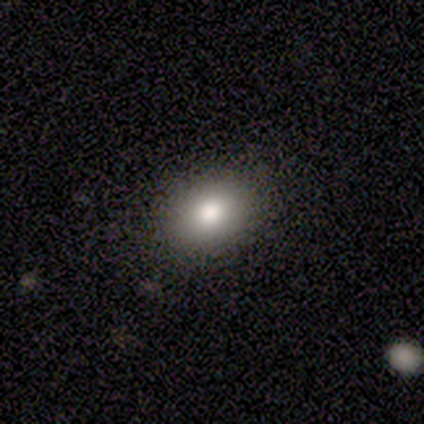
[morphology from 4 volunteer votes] smooth_or_featured: smooth (p=1.00)
how_rounded: round (p=0.50) [tied with: in between p=0.50]
merging: none (p=1.00)